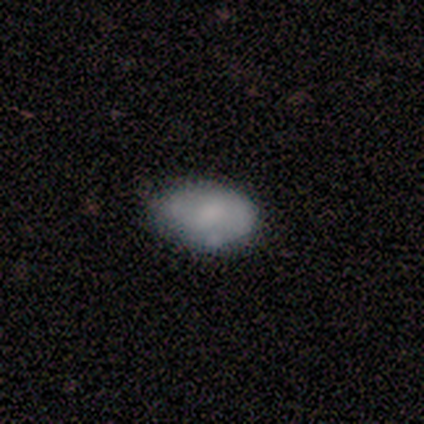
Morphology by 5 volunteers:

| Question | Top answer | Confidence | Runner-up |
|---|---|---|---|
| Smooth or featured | smooth | 60% | featured or disk (40%) |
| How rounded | in between | 100% | — |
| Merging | none | 100% | — |